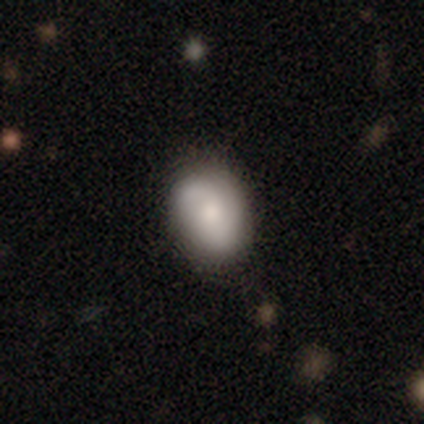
A smooth galaxy with no disk features (57%) that is in between round and cigar-shaped (61%).

Vote fractions:
- Smooth or featured? smooth: 57% / featured or disk: 30% / star or artifact: 12%
- How rounded? in between: 61% / round: 39% / cigar-shaped: 0%
- Merging? none: 80% / minor disturbance: 17% / major disturbance: 3% / merger: 0%